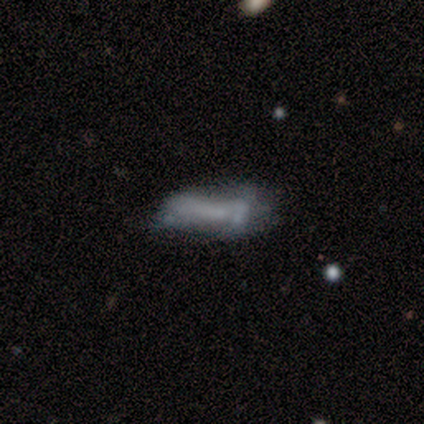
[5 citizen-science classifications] smooth_or_featured: smooth (p=0.60) [alt: featured or disk p=0.40]
how_rounded: cigar-shaped (p=0.67) [alt: in between p=0.33]
merging: none (p=0.40) [tied with: major disturbance p=0.40]